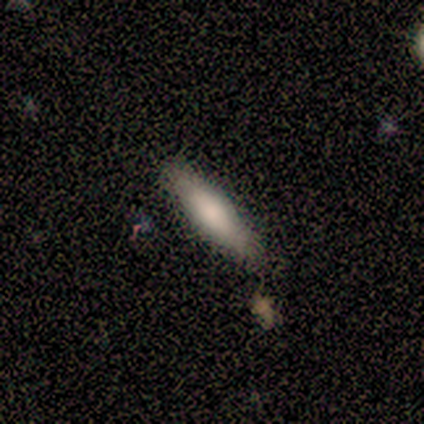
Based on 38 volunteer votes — Volunteers were most divided on "how rounded": cigar-shaped: 77%, in between: 23%, round: 0%. More confident: merging — none (86%); smooth or featured — smooth (79%).